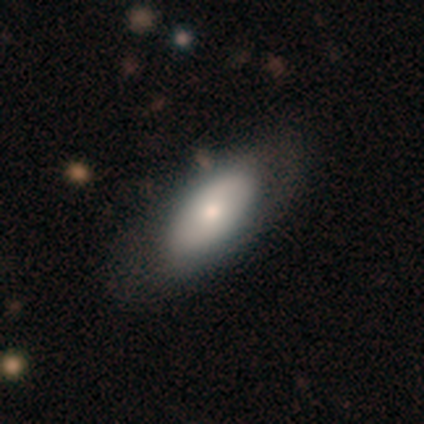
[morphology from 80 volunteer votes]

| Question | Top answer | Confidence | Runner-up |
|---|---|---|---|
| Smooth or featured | smooth | 65% | featured or disk (30%) |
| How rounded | in between | 88% | round (6%) |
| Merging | none | 45% | minor disturbance (8%) |